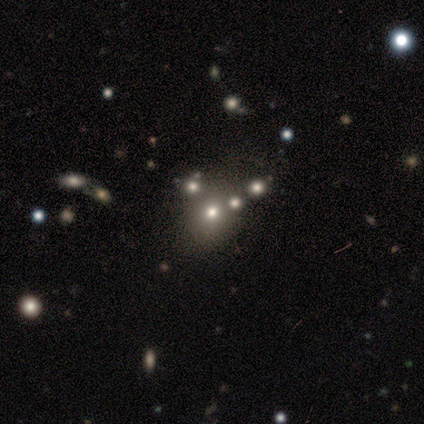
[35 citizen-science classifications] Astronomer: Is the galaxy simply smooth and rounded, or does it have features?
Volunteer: smooth — 57%.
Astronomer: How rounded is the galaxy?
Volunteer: round — 60% (runner-up: in between, 40%).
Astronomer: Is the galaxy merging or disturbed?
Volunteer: merger — 58%.